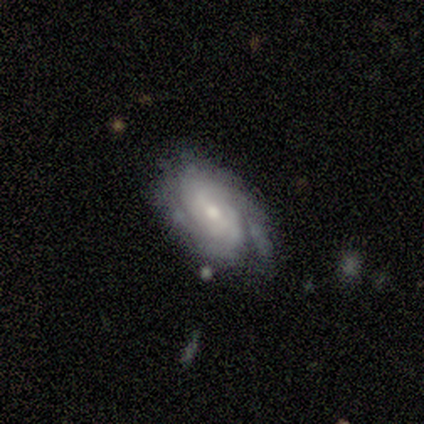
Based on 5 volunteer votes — smooth-or-featured: featured or disk: 100% | smooth: 0% | star or artifact: 0%
  disk-edge-on: no: 100% | yes: 0%
    bar: weak: 80% | no: 20% | strong: 0%
    has-spiral-arms: yes: 100% | no: 0%
      spiral-winding: tight: 80% | medium: 20% | loose: 0%
      spiral-arm-count: can't tell: 80% | 2: 20% | 1: 0% | 3: 0% | 4: 0% | more than 4: 0%
    bulge-size: small: 80% | moderate: 20% | dominant: 0% | large: 0% | none: 0%
  merging: none: 80% | minor disturbance: 20% | major disturbance: 0% | merger: 0%